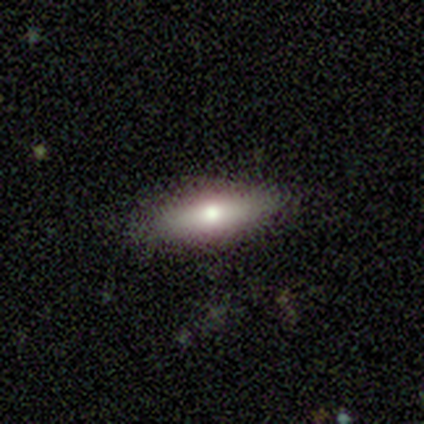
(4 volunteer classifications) Morphology: type=smooth (75%); roundness=in between (67%); merging=none (75%).